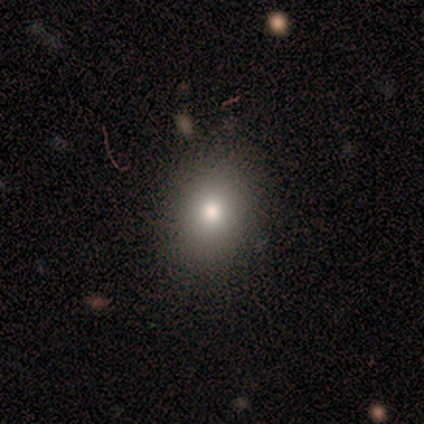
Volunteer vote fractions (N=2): Smooth or featured? smooth (50%, tied with featured or disk)
How rounded? round (100%)
Merging? none (100%)